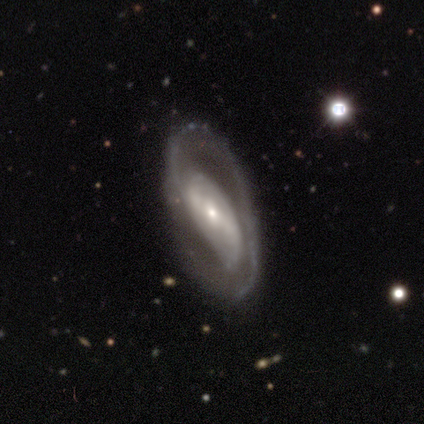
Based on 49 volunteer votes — Overall: featured or disk (82%). Edge-on disk: no (98%). Bar: strong (51%; no 28%). Spiral arms: yes (74%). Spiral arm count: 2 (55%; 1 31%). Spiral winding: medium (45%; loose 31%). Bulge size: small (59%; moderate 31%). Merging: none (67%).